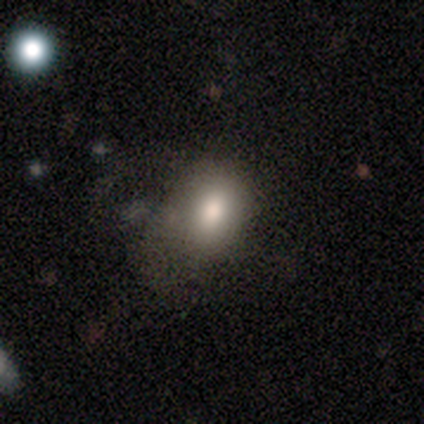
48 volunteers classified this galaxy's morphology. This appears to be a smooth galaxy with no disk features (77%) that is in between round and cigar-shaped (73%). Merging: none (55%).